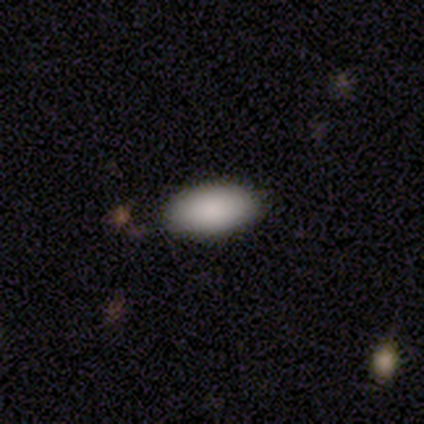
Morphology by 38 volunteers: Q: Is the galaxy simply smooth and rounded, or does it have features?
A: smooth — 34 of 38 (89%).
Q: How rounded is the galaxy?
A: in between — 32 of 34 (94%).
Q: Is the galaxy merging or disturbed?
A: none — 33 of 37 (89%).